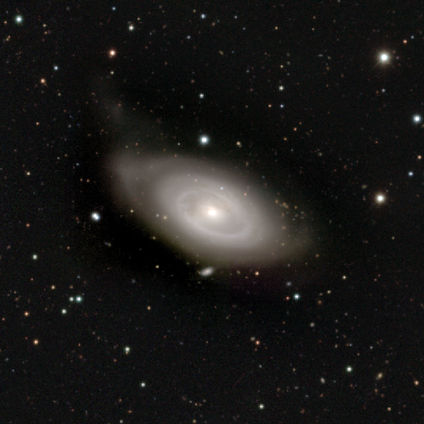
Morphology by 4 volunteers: smooth-or-featured: featured or disk: 75% | star or artifact: 25% | smooth: 0%
  disk-edge-on: no: 100% | yes: 0%
    bar: no: 100% | strong: 0% | weak: 0%
    has-spiral-arms: no: 100% | yes: 0%
    bulge-size: small: 67% | moderate: 33% | dominant: 0% | large: 0% | none: 0%
  merging: none: 33% (tied) | minor disturbance: 33% (tied) | major disturbance: 33% (tied) | merger: 0%